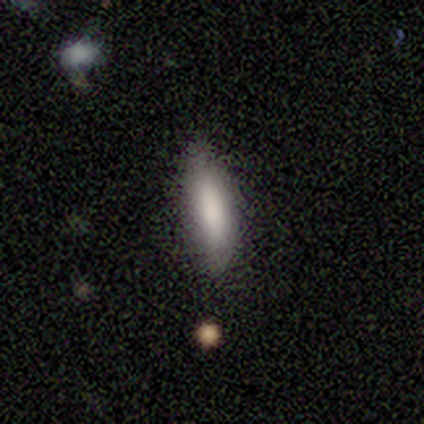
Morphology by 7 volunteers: Smooth or featured? smooth (100%)
How rounded? cigar-shaped (57%)
Merging? none (100%)